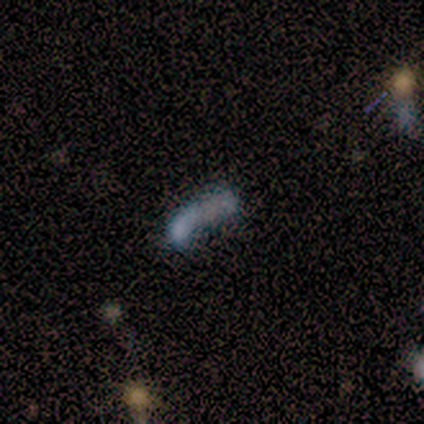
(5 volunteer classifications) A smooth galaxy with no disk features (40%, tied with star or artifact) that is in between round and cigar-shaped (100%).

Vote fractions:
- Smooth or featured? smooth: 40% (tied) / star or artifact: 40% (tied) / featured or disk: 20%
- How rounded? in between: 100% / round: 0% / cigar-shaped: 0%
- Merging? none: 67% / major disturbance: 33% / minor disturbance: 0% / merger: 0%